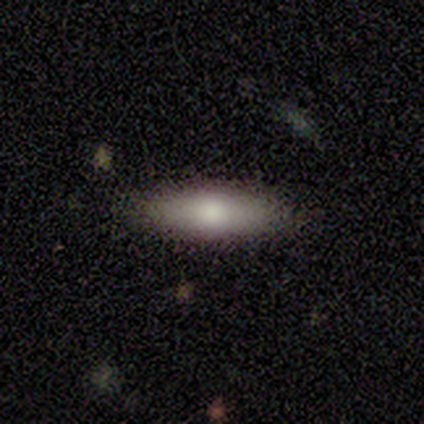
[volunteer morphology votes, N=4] Overall: smooth (100%). How rounded: cigar-shaped (75%). Merging: none (100%).